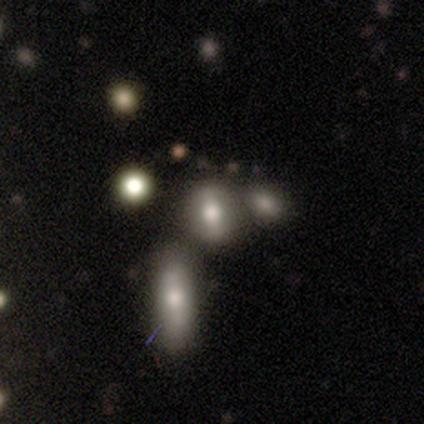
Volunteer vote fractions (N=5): A star or artifact, not a galaxy (80%).

Vote fractions:
- Smooth or featured? star or artifact: 80% / smooth: 20% / featured or disk: 0%